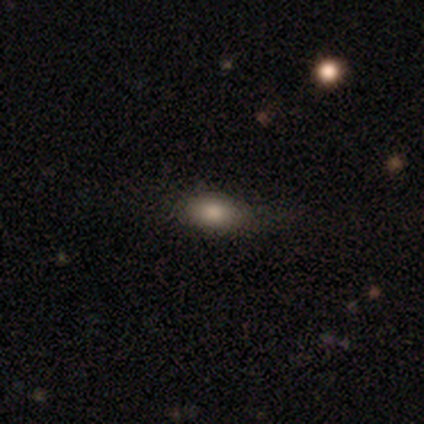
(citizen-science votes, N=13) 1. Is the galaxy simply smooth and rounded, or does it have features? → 92% smooth, 8% featured or disk, 0% star or artifact.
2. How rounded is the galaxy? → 75% in between, 17% round, 8% cigar-shaped.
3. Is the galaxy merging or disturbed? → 92% none, 8% minor disturbance, 0% major disturbance, 0% merger.